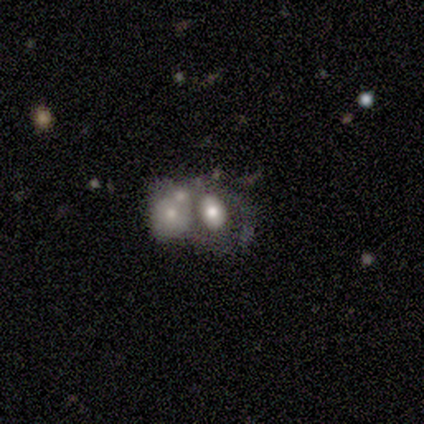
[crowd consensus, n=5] Overall: featured or disk (60%; smooth 20%). Edge-on disk: no (100%). Bar: no (100%). Spiral arms: no (100%). Bulge size: large (33%, tied with moderate and small). Merging: merger (75%).